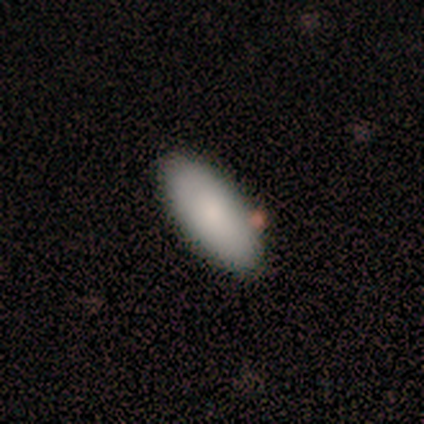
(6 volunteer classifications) Morphology: type=smooth (83%); roundness=in between (100%); merging=none (83%).